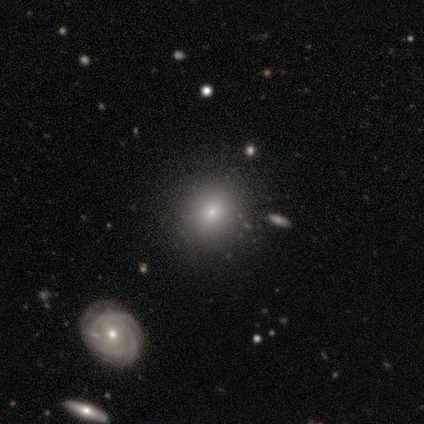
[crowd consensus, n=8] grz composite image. It shows a smooth galaxy with no disk features (75%) that is round (67%). Merging: none (86%).